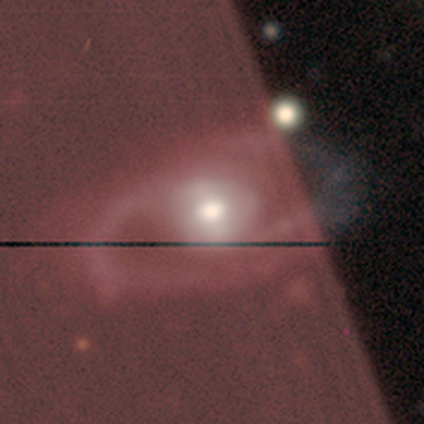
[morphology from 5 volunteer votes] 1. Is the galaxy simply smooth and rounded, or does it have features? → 60% featured or disk, 20% smooth, 20% star or artifact.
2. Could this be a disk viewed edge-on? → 100% no, 0% yes.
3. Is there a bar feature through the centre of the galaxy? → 33% strong (tied), 33% weak (tied), 33% no (tied).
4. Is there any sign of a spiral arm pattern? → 67% yes, 33% no.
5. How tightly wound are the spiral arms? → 50% tight (tied), 50% medium (tied), 0% loose.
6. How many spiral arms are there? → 50% 1 (tied), 50% 2 (tied), 0% 3, 0% 4, 0% more than 4, 0% can't tell.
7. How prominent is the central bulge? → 67% moderate, 33% large, 0% dominant, 0% small, 0% none.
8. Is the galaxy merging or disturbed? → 50% none (tied), 50% minor disturbance (tied), 0% major disturbance, 0% merger.